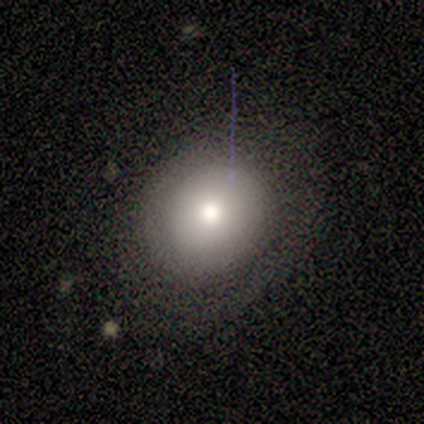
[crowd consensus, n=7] smooth_or_featured: smooth (p=0.71) [alt: star or artifact p=0.29]
how_rounded: round (p=0.80) [alt: in between p=0.20]
merging: none (p=0.60) [alt: major disturbance p=0.40]